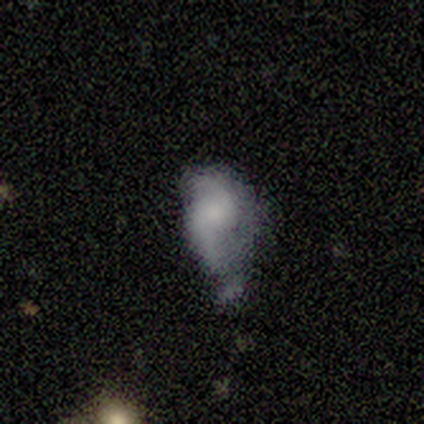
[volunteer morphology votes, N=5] smooth-or-featured: featured or disk: 60% | smooth: 40% | star or artifact: 0%
  disk-edge-on: no: 100% | yes: 0%
    bar: no: 100% | strong: 0% | weak: 0%
    has-spiral-arms: yes: 67% | no: 33%
      spiral-winding: tight: 50% (tied) | loose: 50% (tied) | medium: 0%
      spiral-arm-count: 2: 50% (tied) | can't tell: 50% (tied) | 1: 0% | 3: 0% | 4: 0% | more than 4: 0%
    bulge-size: none: 67% | large: 33% | dominant: 0% | moderate: 0% | small: 0%
  merging: minor disturbance: 40% | none: 20% | major disturbance: 20% | merger: 20%